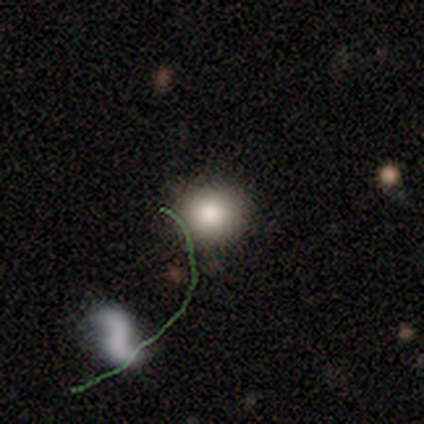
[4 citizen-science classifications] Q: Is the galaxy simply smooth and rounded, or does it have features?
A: smooth — 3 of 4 (75%).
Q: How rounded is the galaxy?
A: round — 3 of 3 (100%).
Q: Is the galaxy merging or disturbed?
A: none — 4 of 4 (100%).